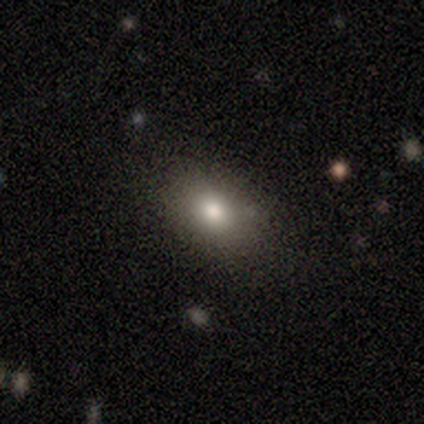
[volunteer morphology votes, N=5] Q: Smooth or featured?
A: smooth (80%); runner-up: star or artifact (20%)
Q: How rounded?
A: in between (100%)
Q: Merging?
A: none (50%); tied with: minor disturbance (50%)